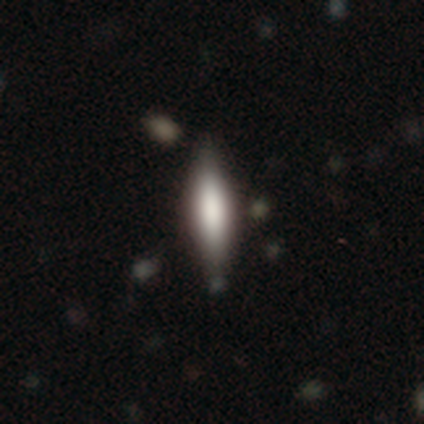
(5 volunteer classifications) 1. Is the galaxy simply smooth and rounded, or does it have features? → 60% smooth, 40% featured or disk, 0% star or artifact.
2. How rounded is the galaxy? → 100% cigar-shaped, 0% round, 0% in between.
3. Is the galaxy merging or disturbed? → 80% none, 20% minor disturbance, 0% major disturbance, 0% merger.